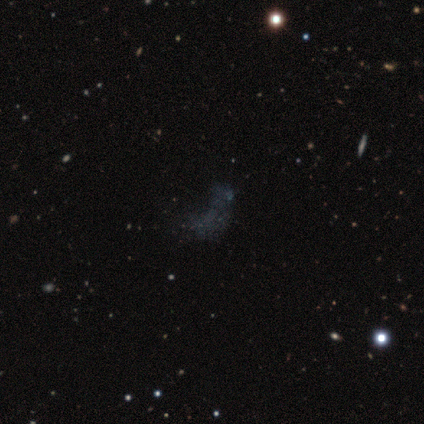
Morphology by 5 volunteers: star or artifact 80%, featured or disk 20%, smooth 0%.